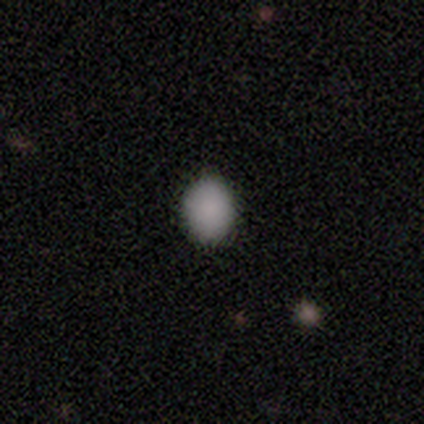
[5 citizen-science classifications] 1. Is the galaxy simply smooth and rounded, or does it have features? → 80% smooth, 20% star or artifact, 0% featured or disk.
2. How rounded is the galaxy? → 100% round, 0% in between, 0% cigar-shaped.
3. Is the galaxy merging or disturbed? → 100% none, 0% minor disturbance, 0% major disturbance, 0% merger.